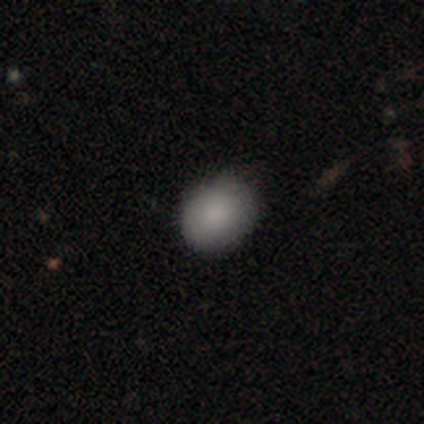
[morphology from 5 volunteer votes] smooth-or-featured: smooth: 80% | featured or disk: 20% | star or artifact: 0%
  how-rounded: in between: 100% | round: 0% | cigar-shaped: 0%
  merging: none: 80% | minor disturbance: 20% | major disturbance: 0% | merger: 0%